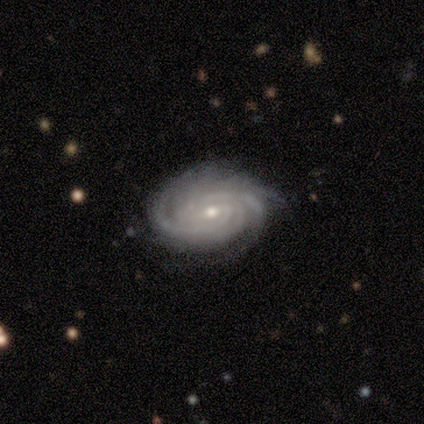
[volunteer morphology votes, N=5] type=featured or disk (100%); edge-on=no (80%); bar=weak (50%, tied with no); spiral arms=yes (100%); winding=tight (100%); arm count=4 (50%); bulge=small (75%); merging=none (80%).